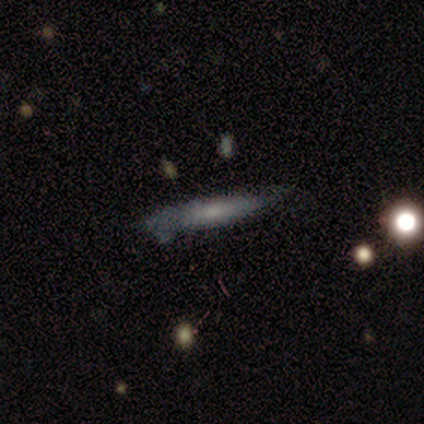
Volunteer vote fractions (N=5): Smooth or featured? smooth (60%)
How rounded? cigar-shaped (100%)
Merging? none (75%)